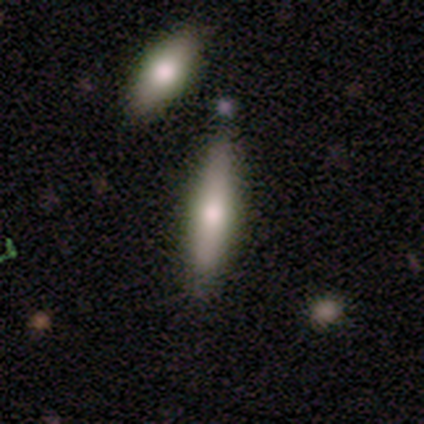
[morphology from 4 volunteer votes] Smooth or featured: smooth — 50% (tied with featured or disk — 50%)
How rounded: cigar-shaped — 100%
Merging: none — 75% (minor disturbance — 25%)